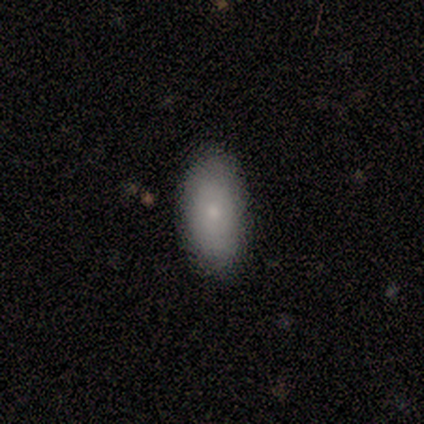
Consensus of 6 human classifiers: Smooth or featured? 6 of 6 (100%) said smooth. How rounded? 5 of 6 (83%) said in between. Merging? 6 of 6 (100%) said none.